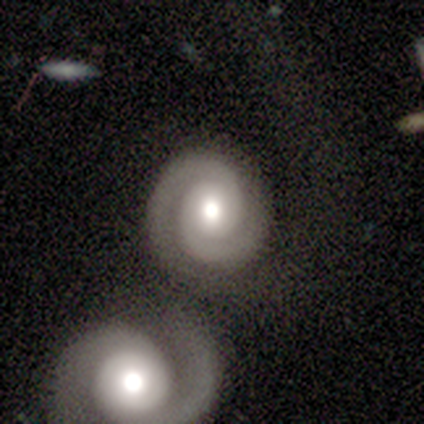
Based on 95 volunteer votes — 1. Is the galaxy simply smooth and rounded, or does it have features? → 88% featured or disk, 8% star or artifact, 3% smooth.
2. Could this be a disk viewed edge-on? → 99% no, 1% yes.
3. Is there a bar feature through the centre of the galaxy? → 72% no, 20% weak, 7% strong.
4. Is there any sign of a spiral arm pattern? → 98% yes, 2% no.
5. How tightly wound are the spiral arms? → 81% tight, 15% medium, 4% loose.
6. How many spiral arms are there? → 94% 2, 2% can't tell, 1% 1, 1% 3, 1% more than 4, 0% 4.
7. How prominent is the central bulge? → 58% moderate, 37% large, 4% dominant, 1% small, 0% none.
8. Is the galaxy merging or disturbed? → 47% none, 36% merger, 10% minor disturbance, 7% major disturbance.